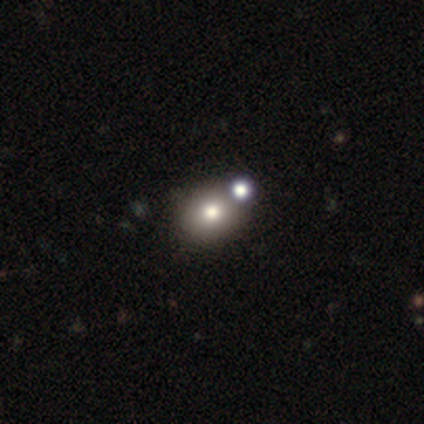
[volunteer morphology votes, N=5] smooth 80%, star or artifact 20%, featured or disk 0%. Down the decision tree: how rounded — round (50%, tied with in between); merging — none (100%).